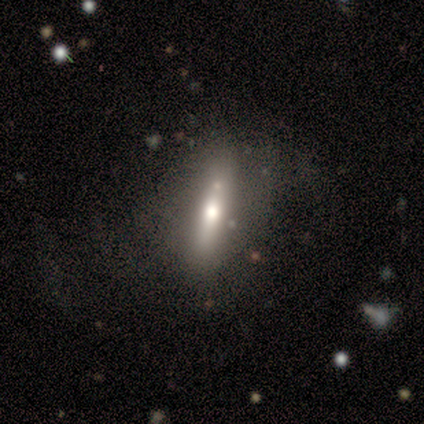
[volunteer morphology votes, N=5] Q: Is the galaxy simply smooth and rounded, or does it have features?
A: smooth — 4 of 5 (80%).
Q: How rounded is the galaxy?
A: in between — 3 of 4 (75%).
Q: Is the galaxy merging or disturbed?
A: none — 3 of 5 (60%).